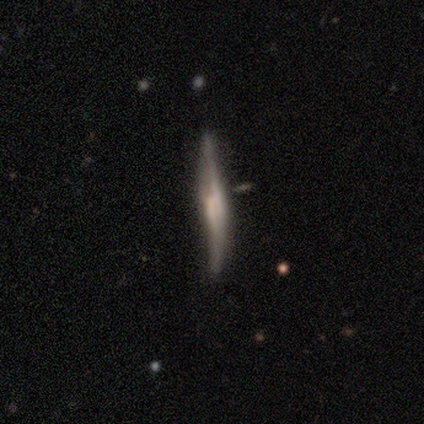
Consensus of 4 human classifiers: A featured or disk galaxy (75%) viewed edge-on (100%) with a boxy central bulge (33%, tied with none and rounded). Merging: minor disturbance (75%).